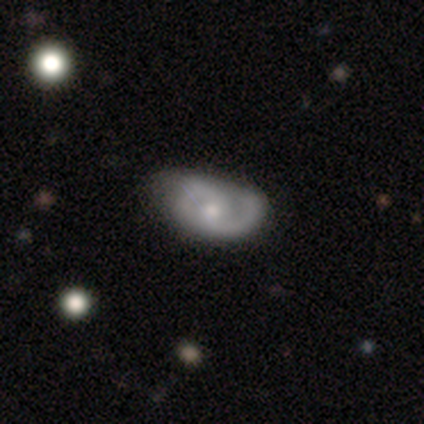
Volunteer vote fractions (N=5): Overall: featured or disk (60%; smooth 20%). Edge-on disk: no (100%). Bar: no (67%; weak 33%). Spiral arms: yes (100%). Spiral arm count: 2 (67%; 1 33%). Spiral winding: loose (67%; medium 33%). Bulge size: small (67%; moderate 33%). Merging: none (75%).